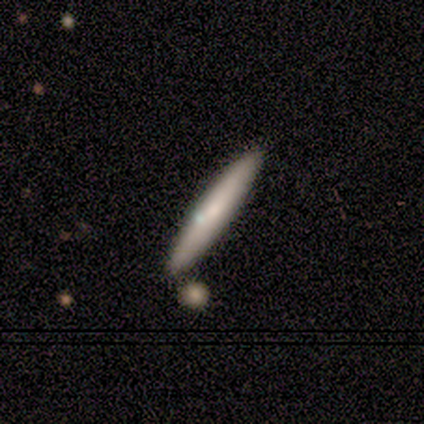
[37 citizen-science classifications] smooth_or_featured: smooth (p=0.62) [alt: featured or disk p=0.35]
how_rounded: cigar-shaped (p=1.00)
merging: none (p=0.47) [alt: merger p=0.17]